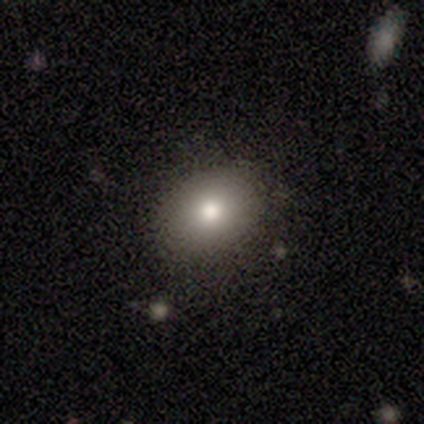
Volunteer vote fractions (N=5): A smooth galaxy with no disk features (80%) that is in between round and cigar-shaped (75%). Merging: none (75%).